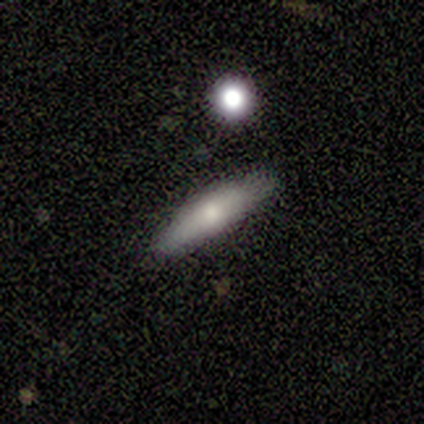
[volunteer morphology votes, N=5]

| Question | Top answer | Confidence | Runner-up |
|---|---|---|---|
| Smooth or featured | smooth | 60% | featured or disk (20%) |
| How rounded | cigar-shaped | 100% | — |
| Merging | none | 50% | tied: minor disturbance (50%) |